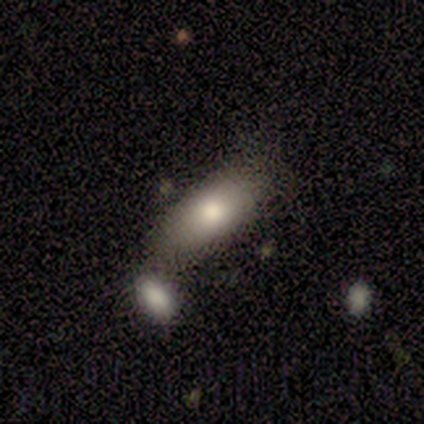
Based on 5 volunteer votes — Smooth or featured? 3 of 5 (60%) said smooth. How rounded? 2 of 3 (67%) said in between. Merging? 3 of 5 (60%) said none.